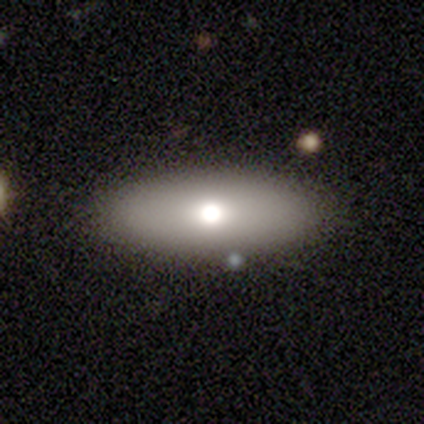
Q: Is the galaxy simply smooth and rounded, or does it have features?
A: smooth — 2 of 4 (50%).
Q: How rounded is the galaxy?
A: in between — 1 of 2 (50%, tied with cigar-shaped).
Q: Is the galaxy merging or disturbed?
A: none — 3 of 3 (100%).